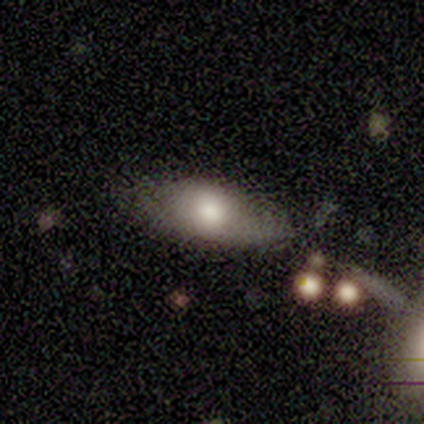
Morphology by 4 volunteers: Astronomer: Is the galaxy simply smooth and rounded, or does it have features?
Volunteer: smooth — 100%.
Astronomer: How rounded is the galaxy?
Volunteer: in between — 100%.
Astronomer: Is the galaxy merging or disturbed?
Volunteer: none — 100%.